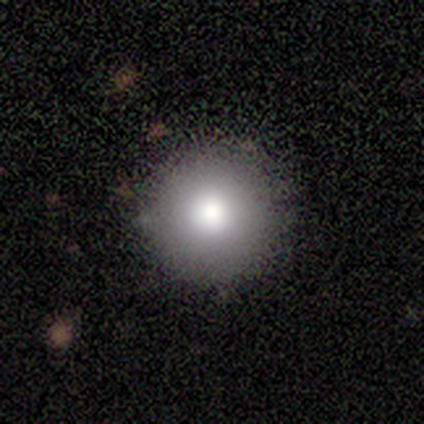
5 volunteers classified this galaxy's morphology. smooth_or_featured: smooth (p=0.80) [alt: star or artifact p=0.20]
how_rounded: round (p=1.00)
merging: none (p=1.00)